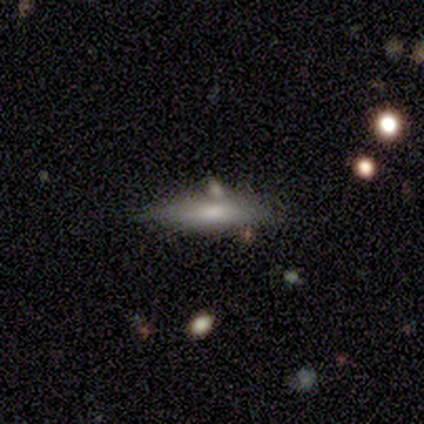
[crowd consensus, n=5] Overall: smooth (60%; featured or disk 40%). How rounded: cigar-shaped (100%). Merging: none (60%; minor disturbance 20%).